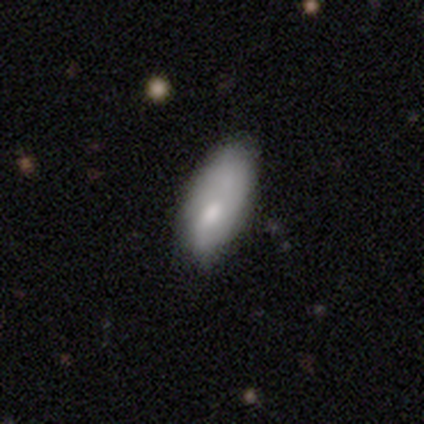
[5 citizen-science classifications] Q: Smooth or featured?
A: smooth (60%); runner-up: featured or disk (20%)
Q: How rounded?
A: in between (100%)
Q: Merging?
A: major disturbance (50%); runner-up: minor disturbance (25%)